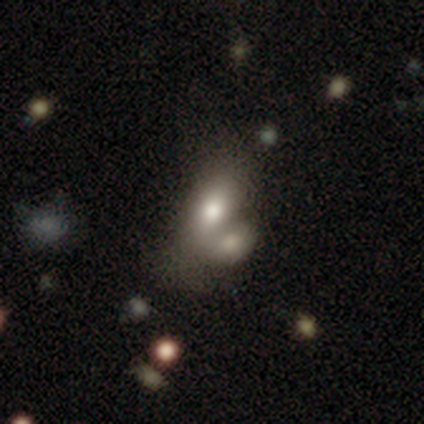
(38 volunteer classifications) smooth_or_featured: smooth (p=0.79) [alt: featured or disk p=0.13]
how_rounded: in between (p=0.80) [alt: round p=0.10]
merging: merger (p=0.71) [alt: none p=0.09]